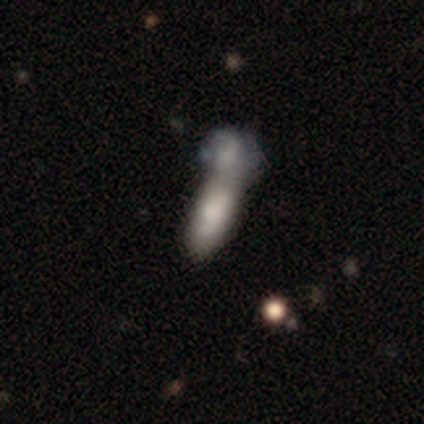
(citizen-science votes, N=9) smooth_or_featured: smooth (p=0.89) [alt: star or artifact p=0.11]
how_rounded: in between (p=0.62) [alt: cigar-shaped p=0.38]
merging: merger (p=0.88) [alt: none p=0.12]